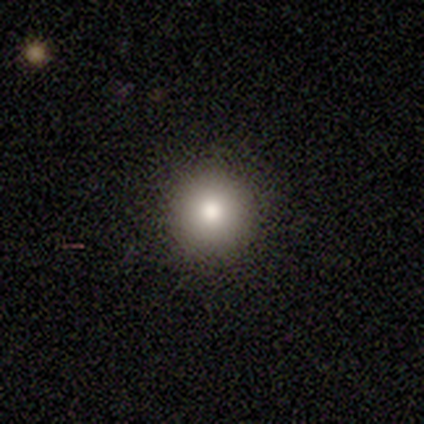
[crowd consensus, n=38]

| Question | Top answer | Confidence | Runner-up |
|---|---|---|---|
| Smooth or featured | smooth | 66% | featured or disk (24%) |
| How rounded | round | 96% | in between (4%) |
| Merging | none | 97% | minor disturbance (3%) |